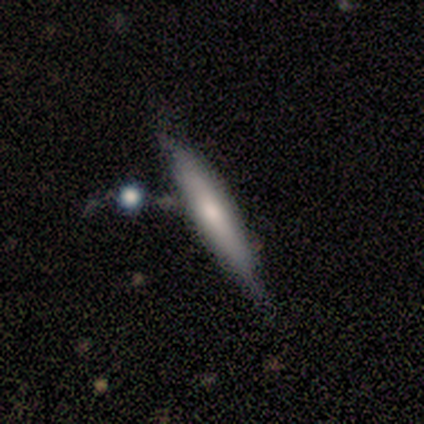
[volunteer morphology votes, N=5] smooth_or_featured: smooth (p=0.40) [tied with: star or artifact p=0.40]
how_rounded: in between (p=0.50) [tied with: cigar-shaped p=0.50]
merging: none (p=0.67) [alt: minor disturbance p=0.33]